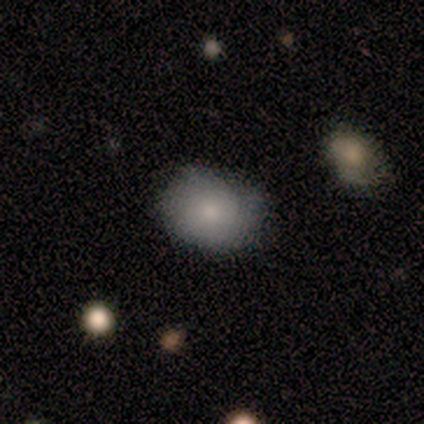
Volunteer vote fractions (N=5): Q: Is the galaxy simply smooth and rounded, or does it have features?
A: smooth — 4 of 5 (80%).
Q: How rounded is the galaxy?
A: round — 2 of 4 (50%, tied with in between).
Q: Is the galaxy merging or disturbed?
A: none — 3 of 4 (75%).